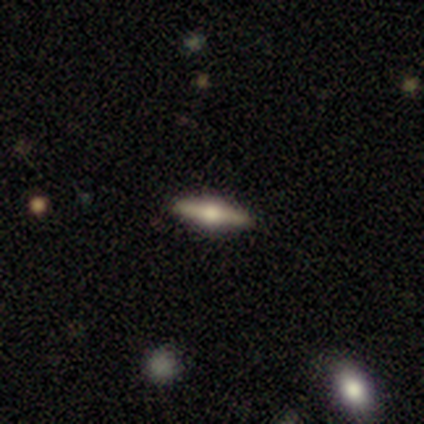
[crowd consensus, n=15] Morphology: type=featured or disk (67%); edge-on=yes (100%); edge-on bulge=rounded (100%); merging=none (79%).